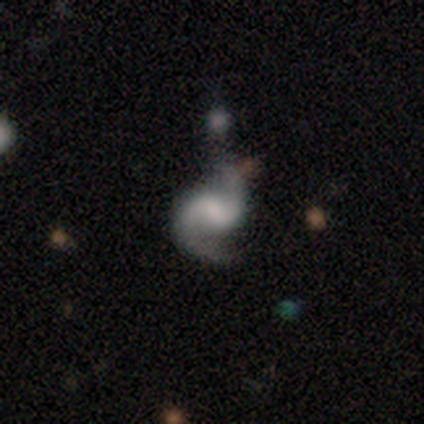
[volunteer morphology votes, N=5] Overall: featured or disk (100%). Edge-on disk: no (100%). Bar: weak (80%). Spiral arms: yes (100%). Spiral arm count: 2 (100%). Spiral winding: medium (100%). Bulge size: moderate (60%; small 20%). Merging: none (40%, tied with minor disturbance).